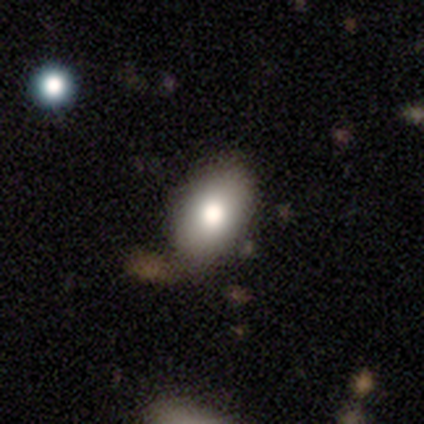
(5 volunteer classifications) Q: Smooth or featured?
A: smooth (60%); runner-up: featured or disk (40%)
Q: How rounded?
A: in between (100%)
Q: Merging?
A: none (80%); runner-up: minor disturbance (20%)